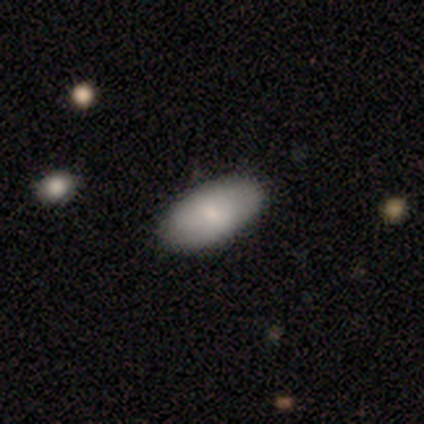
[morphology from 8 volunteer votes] Smooth or featured? smooth (88%)
How rounded? in between (100%)
Merging? none (100%)